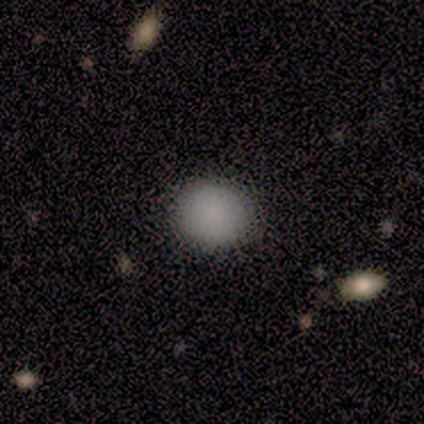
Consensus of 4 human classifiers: Q: Smooth or featured?
A: smooth (50%); runner-up: featured or disk (25%)
Q: How rounded?
A: in between (100%)
Q: Merging?
A: none (100%)